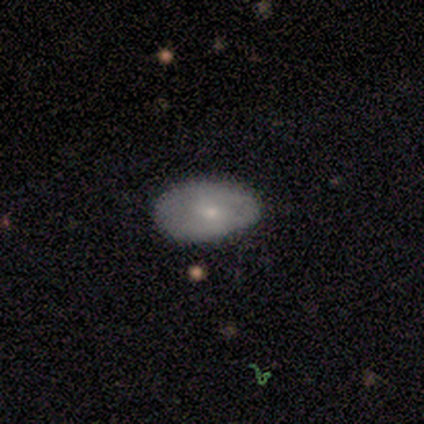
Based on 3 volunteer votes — smooth-or-featured: smooth: 67% | featured or disk: 33% | star or artifact: 0%
  how-rounded: in between: 100% | round: 0% | cigar-shaped: 0%
  merging: none: 67% | minor disturbance: 33% | major disturbance: 0% | merger: 0%